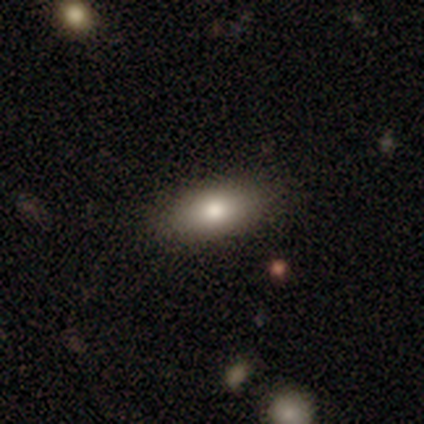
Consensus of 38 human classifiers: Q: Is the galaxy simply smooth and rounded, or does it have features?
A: smooth — 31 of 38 (82%).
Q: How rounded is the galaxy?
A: in between — 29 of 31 (94%).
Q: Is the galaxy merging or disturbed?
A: none — 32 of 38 (84%).